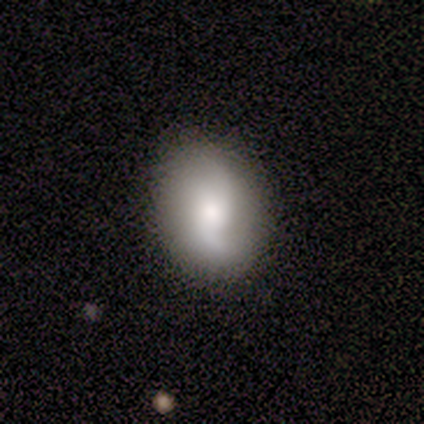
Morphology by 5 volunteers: Smooth or featured?
  - smooth: 60% *
  - featured or disk: 40%
  - star or artifact: 0%
How rounded?
  - in between: 67% *
  - round: 33%
  - cigar-shaped: 0%
Merging?
  - none: 80% *
  - minor disturbance: 20%
  - major disturbance: 0%
  - merger: 0%